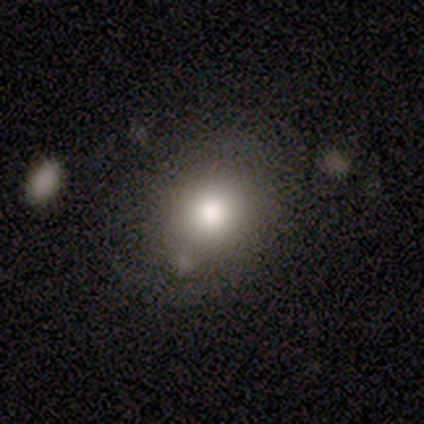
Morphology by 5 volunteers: This appears to be a smooth galaxy with no disk features (100%) that is in between round and cigar-shaped (60%). Merging: none (80%).